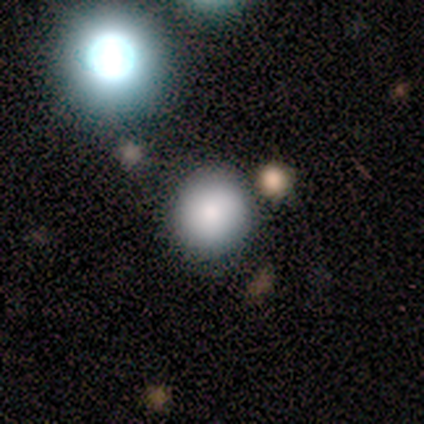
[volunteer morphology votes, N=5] Smooth or featured? 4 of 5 (80%) said smooth. How rounded? 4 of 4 (100%) said round. Merging? 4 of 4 (100%) said none.